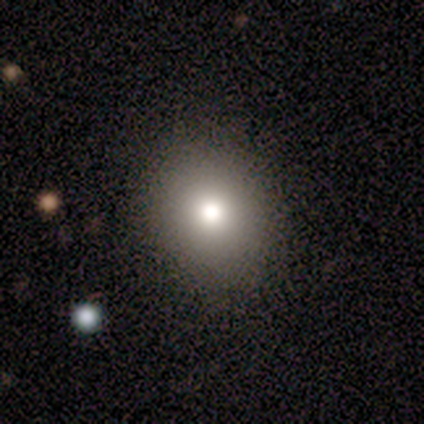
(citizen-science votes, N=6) smooth-or-featured: smooth: 100% | featured or disk: 0% | star or artifact: 0%
  how-rounded: round: 100% | in between: 0% | cigar-shaped: 0%
  merging: none: 100% | minor disturbance: 0% | major disturbance: 0% | merger: 0%